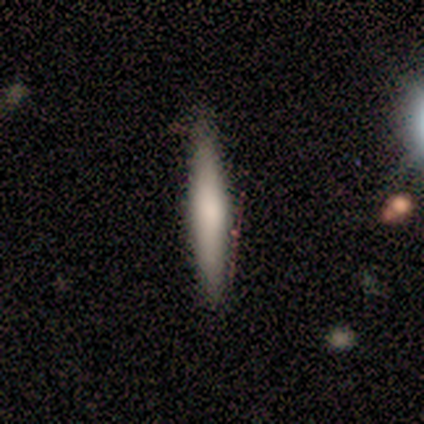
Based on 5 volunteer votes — Smooth or featured? featured or disk (60%)
Edge-on disk? yes (100%)
Edge-on bulge? rounded (67%)
Merging? none (80%)